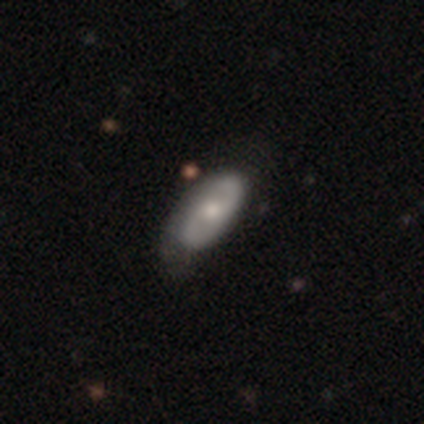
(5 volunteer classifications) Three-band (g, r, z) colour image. It shows a featured or disk galaxy (60%) with a weak bar (67%), no spiral arms (67%) and a moderate central bulge (67%). Merging: none (60%).